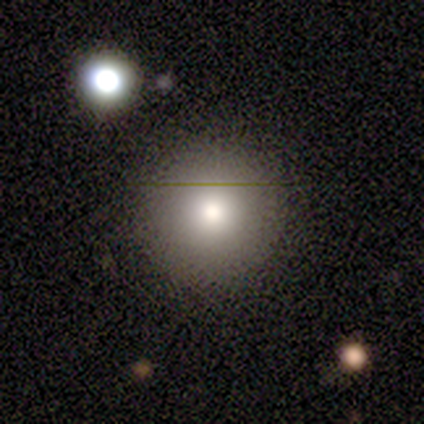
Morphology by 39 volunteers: Smooth or featured?
  - smooth: 74% *
  - star or artifact: 18%
  - featured or disk: 8%
How rounded?
  - round: 90% *
  - in between: 10%
  - cigar-shaped: 0%
Merging?
  - none: 81% *
  - minor disturbance: 12%
  - major disturbance: 6%
  - merger: 0%